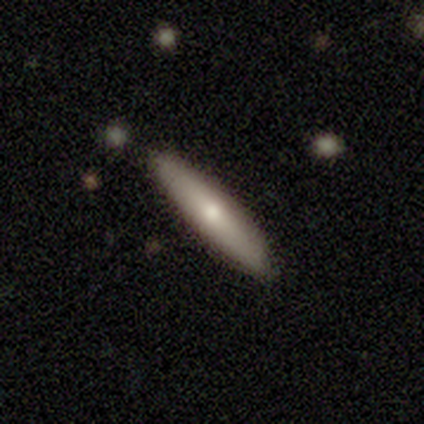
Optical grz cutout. It shows a smooth galaxy with no disk features (50%, tied with featured or disk) that is cigar-shaped (100%). Merging: none (100%).